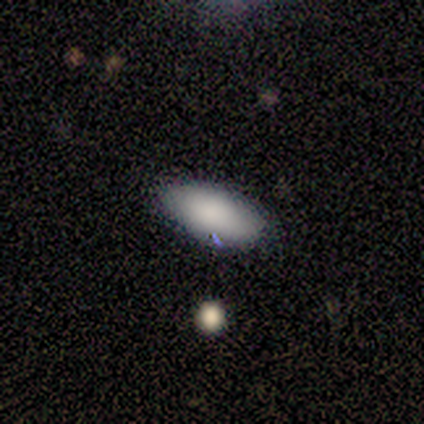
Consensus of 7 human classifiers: smooth-or-featured: smooth: 100% | featured or disk: 0% | star or artifact: 0%
  how-rounded: in between: 100% | round: 0% | cigar-shaped: 0%
  merging: none: 100% | minor disturbance: 0% | major disturbance: 0% | merger: 0%